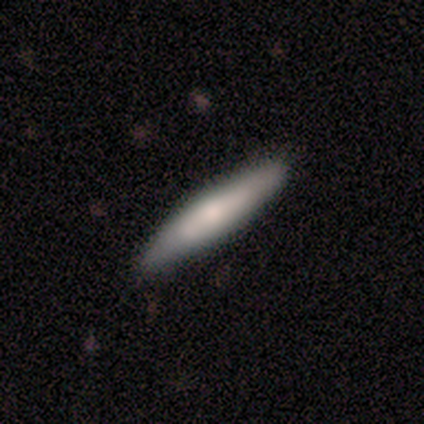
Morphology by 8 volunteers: Smooth or featured?
  - smooth: 75% *
  - featured or disk: 25%
  - star or artifact: 0%
How rounded?
  - cigar-shaped: 67% *
  - in between: 33%
  - round: 0%
Merging?
  - none: 100% *
  - minor disturbance: 0%
  - major disturbance: 0%
  - merger: 0%